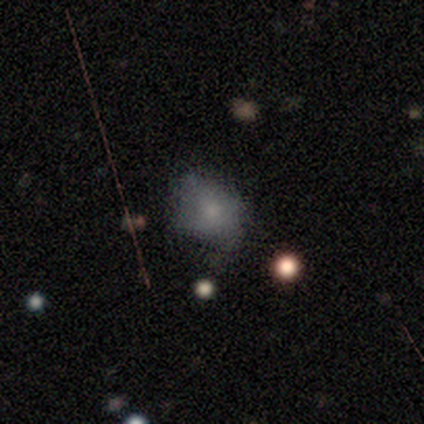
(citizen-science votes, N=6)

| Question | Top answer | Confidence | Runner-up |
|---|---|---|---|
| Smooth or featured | smooth | 83% | star or artifact (17%) |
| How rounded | round | 60% | in between (40%) |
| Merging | none | 40% | tied: minor disturbance (40%) |